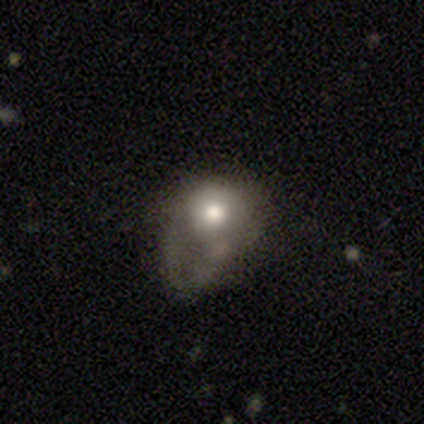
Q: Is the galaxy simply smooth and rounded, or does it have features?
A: smooth — 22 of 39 (56%).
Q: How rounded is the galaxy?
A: round — 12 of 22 (55%).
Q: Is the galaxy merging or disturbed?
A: major disturbance — 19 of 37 (51%).